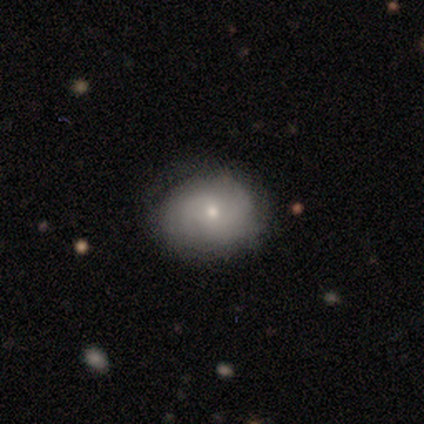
Smooth or featured? featured or disk (50%)
Edge-on disk? no (100%)
Bar? no (67%)
Spiral arms? yes (67%)
Spiral winding? tight (50%, tied with loose)
Spiral arm count? 1 (50%, tied with can't tell)
Bulge size? moderate (67%)
Merging? none (80%)